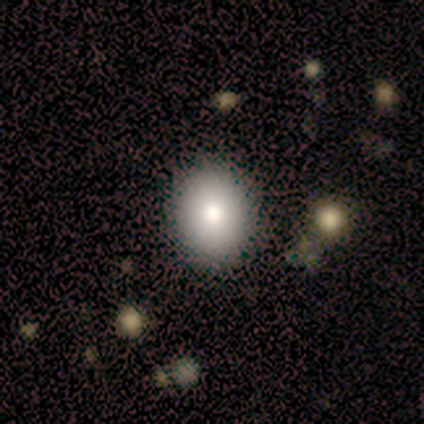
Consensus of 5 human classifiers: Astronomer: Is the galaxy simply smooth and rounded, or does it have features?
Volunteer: smooth — 80%.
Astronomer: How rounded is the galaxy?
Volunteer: round — 100%.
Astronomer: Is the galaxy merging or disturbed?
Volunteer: none — 75%.